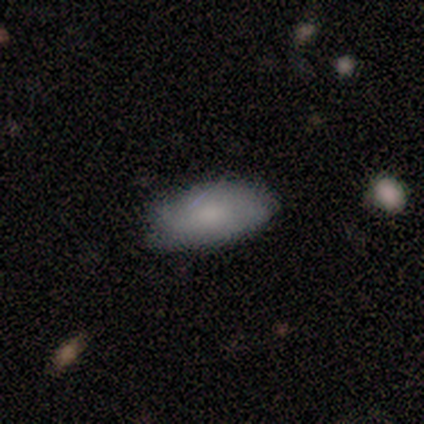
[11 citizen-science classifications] This is likely a smooth galaxy (73%). How rounded: clearly in between (100%). Merging: clearly none (90%).